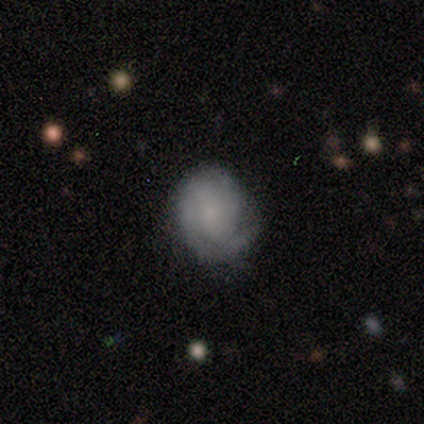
A featured or disk galaxy (100%) with a weak bar (60%), 2 (60%) tight (100%) spiral arms (100%) and a moderate central bulge (40%, tied with none). Merging: none (80%).